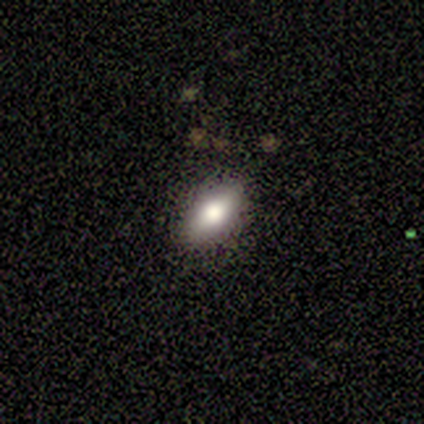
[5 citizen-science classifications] A smooth galaxy with no disk features (100%) that is in between round and cigar-shaped (80%). Merging: none (100%).